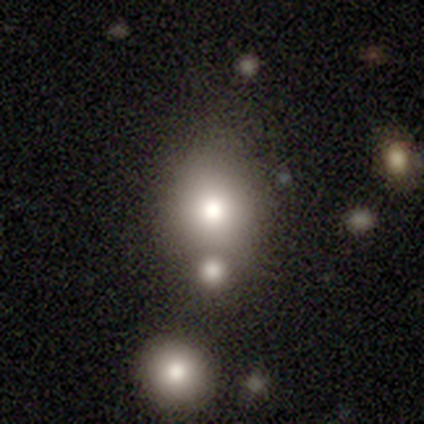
smooth_or_featured: smooth (p=0.75) [alt: star or artifact p=0.25]
how_rounded: in between (p=1.00)
merging: merger (p=0.67) [alt: none p=0.33]